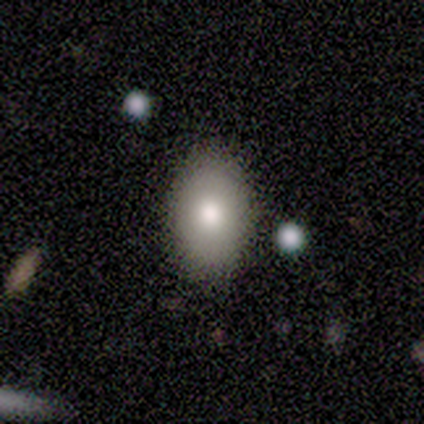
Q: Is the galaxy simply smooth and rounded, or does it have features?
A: smooth — 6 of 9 (67%).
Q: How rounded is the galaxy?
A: in between — 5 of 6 (83%).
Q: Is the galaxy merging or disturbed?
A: none — 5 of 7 (71%).